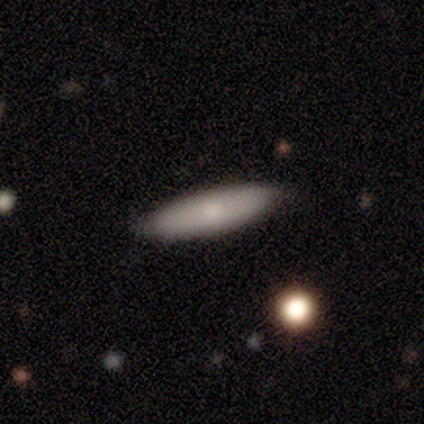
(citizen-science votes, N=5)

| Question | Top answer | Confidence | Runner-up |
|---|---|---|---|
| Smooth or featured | smooth | 100% | — |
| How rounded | cigar-shaped | 60% | in between (40%) |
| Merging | none | 80% | merger (20%) |